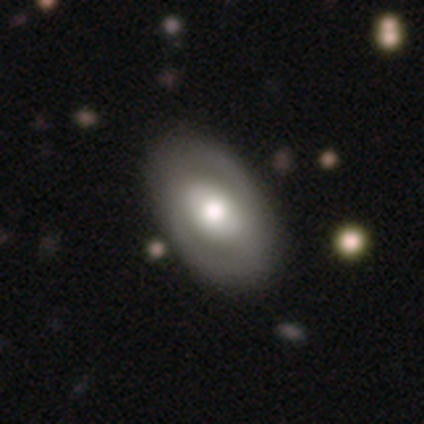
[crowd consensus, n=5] A featured or disk galaxy (60%) with no bar (100%), no spiral arms (100%) and a moderate central bulge (100%).

Vote fractions:
- Smooth or featured? featured or disk: 60% / smooth: 40% / star or artifact: 0%
- Edge-on disk? no: 100% / yes: 0%
- Bar? no: 100% / strong: 0% / weak: 0%
- Spiral arms? no: 100% / yes: 0%
- Bulge size? moderate: 100% / dominant: 0% / large: 0% / small: 0% / none: 0%
- Merging? none: 100% / minor disturbance: 0% / major disturbance: 0% / merger: 0%